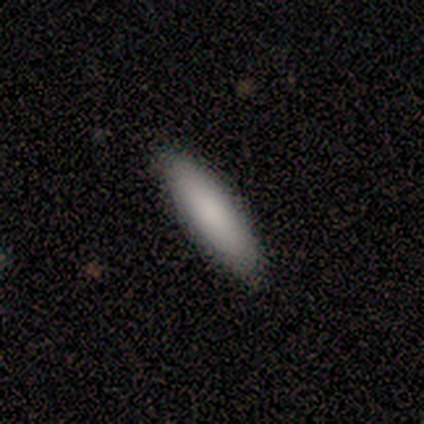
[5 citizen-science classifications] Q: Smooth or featured?
A: smooth (80%); runner-up: featured or disk (20%)
Q: How rounded?
A: in between (50%); tied with: cigar-shaped (50%)
Q: Merging?
A: none (80%); runner-up: minor disturbance (20%)